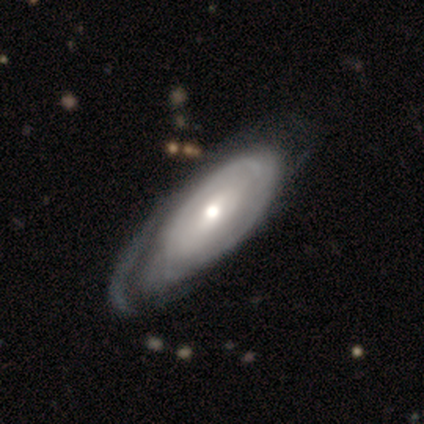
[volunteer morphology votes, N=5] A featured or disk galaxy (60%) with no bar (100%), 3 (50%, tied with can't tell) tight (100%) spiral arms (67%) and a small central bulge (67%). Merging: none (40%, tied with major disturbance).